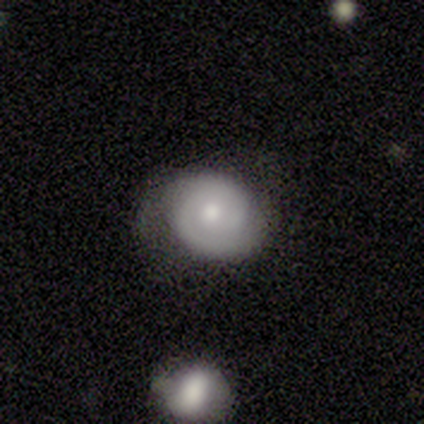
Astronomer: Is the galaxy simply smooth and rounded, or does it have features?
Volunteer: featured or disk — 80%.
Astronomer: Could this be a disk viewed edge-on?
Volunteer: no — 100%.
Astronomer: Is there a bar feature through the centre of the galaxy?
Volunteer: no — 75%.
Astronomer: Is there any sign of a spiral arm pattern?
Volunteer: yes — 75%.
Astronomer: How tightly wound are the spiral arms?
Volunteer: tight — 33%, tied with medium and loose at 33%.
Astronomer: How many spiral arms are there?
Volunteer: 2 — 67%.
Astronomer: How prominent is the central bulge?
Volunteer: moderate — 75%.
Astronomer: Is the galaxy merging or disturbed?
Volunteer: none — 80%.